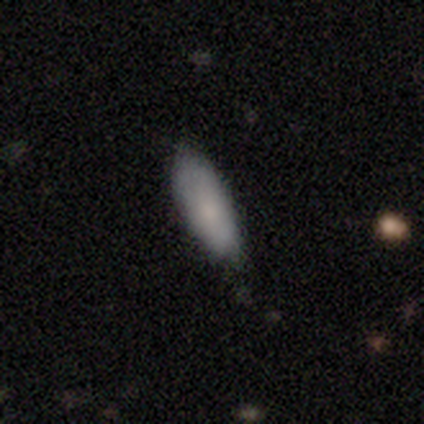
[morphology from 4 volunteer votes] smooth_or_featured: smooth (p=1.00)
how_rounded: in between (p=1.00)
merging: none (p=0.75) [alt: minor disturbance p=0.25]